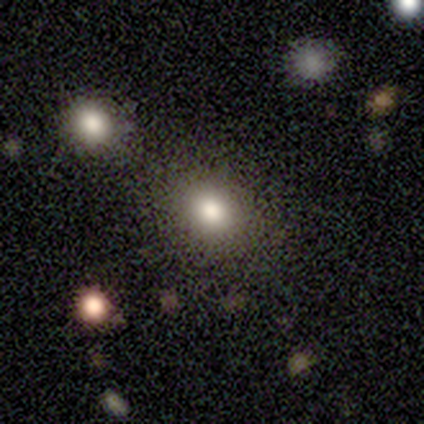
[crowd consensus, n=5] A smooth galaxy with no disk features (60%) that is round (100%).

Vote fractions:
- Smooth or featured? smooth: 60% / featured or disk: 20% / star or artifact: 20%
- How rounded? round: 100% / in between: 0% / cigar-shaped: 0%
- Merging? none: 75% / merger: 25% / minor disturbance: 0% / major disturbance: 0%